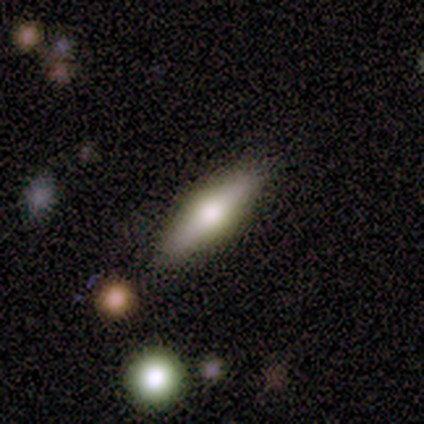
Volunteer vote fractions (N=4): smooth_or_featured: featured or disk (p=0.75) [alt: smooth p=0.25]
disk_edge_on: yes (p=0.67) [alt: no p=0.33]
edge_on_bulge: rounded (p=1.00)
merging: none (p=0.75) [alt: major disturbance p=0.25]